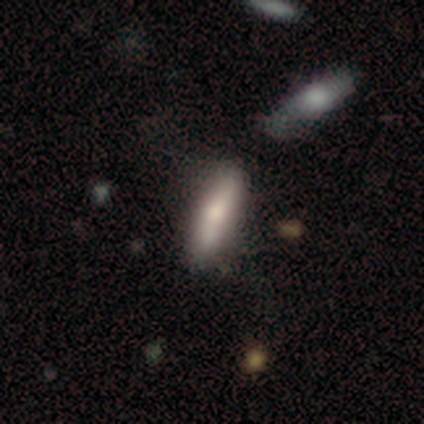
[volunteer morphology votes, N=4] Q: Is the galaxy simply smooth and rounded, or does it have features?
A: smooth — 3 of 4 (75%).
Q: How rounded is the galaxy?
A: cigar-shaped — 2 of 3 (67%).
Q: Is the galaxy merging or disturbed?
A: none — 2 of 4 (50%, tied with merger).